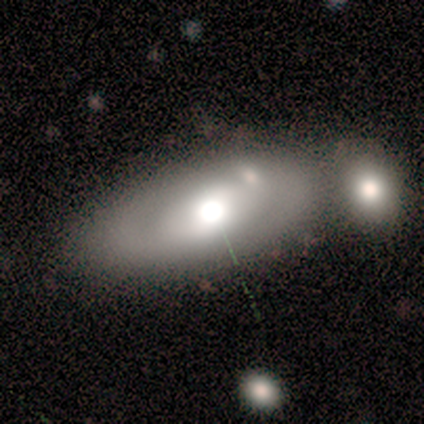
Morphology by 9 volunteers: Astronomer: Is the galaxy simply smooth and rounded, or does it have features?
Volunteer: smooth — 67%.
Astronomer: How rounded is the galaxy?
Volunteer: in between — 67%.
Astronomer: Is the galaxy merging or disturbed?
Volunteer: merger — 67%.